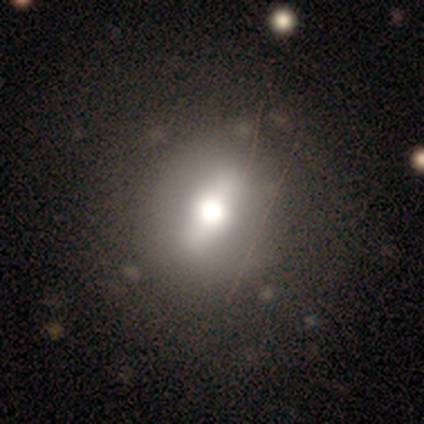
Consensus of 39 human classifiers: This appears to be a smooth galaxy with no disk features (49%) that is round (63%). Merging: none (83%).